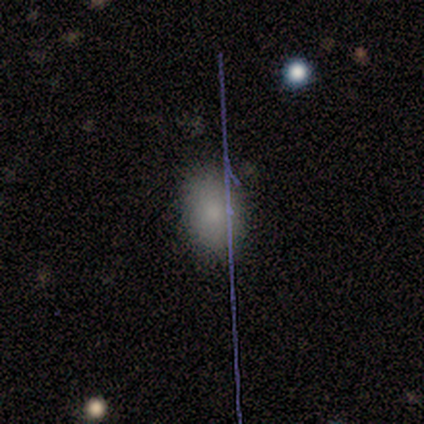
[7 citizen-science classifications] smooth_or_featured: smooth (p=0.71) [alt: featured or disk p=0.14]
how_rounded: in between (p=1.00)
merging: none (p=1.00)